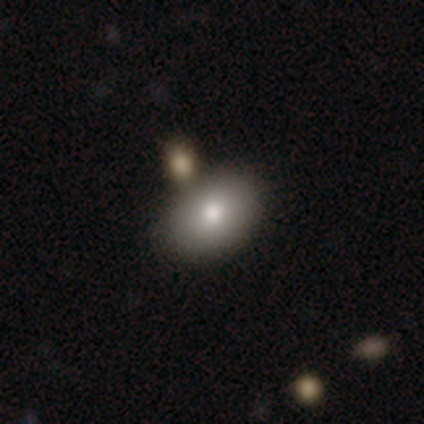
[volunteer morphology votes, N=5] This appears to be a smooth galaxy with no disk features (60%) that is in between round and cigar-shaped (100%). Merging: none (50%).